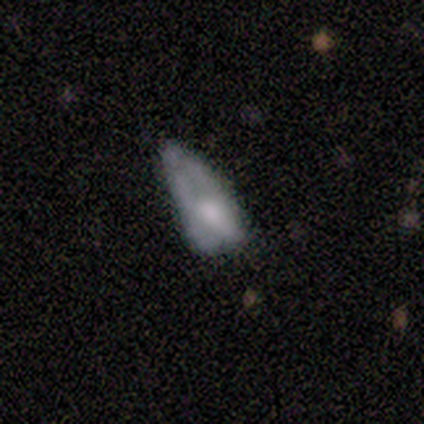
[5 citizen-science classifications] Volunteers were most divided on "merging" (2-way tie): minor disturbance: 40%, major disturbance: 40%, none: 20%, merger: 0%. More confident: how rounded — in between (67%); smooth or featured — smooth (60%).